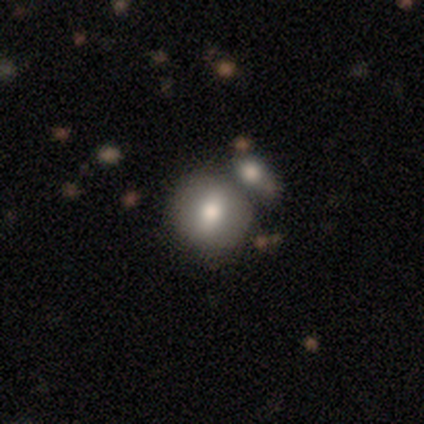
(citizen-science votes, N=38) smooth_or_featured: smooth (p=0.66) [alt: featured or disk p=0.26]
how_rounded: round (p=0.92) [alt: in between p=0.08]
merging: merger (p=0.69)